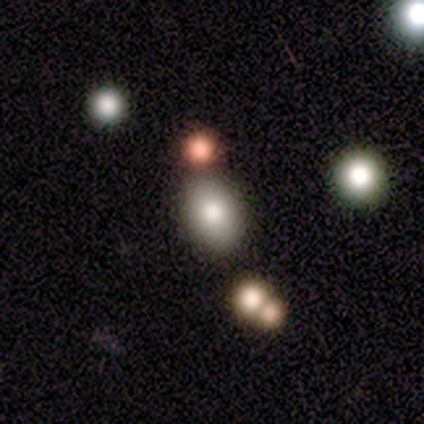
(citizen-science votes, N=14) A smooth galaxy with no disk features (71%) that is in between round and cigar-shaped (100%).

Vote fractions:
- Smooth or featured? smooth: 71% / featured or disk: 14% / star or artifact: 14%
- How rounded? in between: 100% / round: 0% / cigar-shaped: 0%
- Merging? none: 75% / minor disturbance: 8% / major disturbance: 8% / merger: 8%